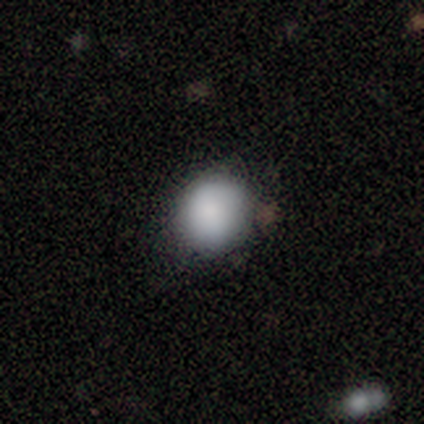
Smooth or featured?
  - smooth: 100% *
  - featured or disk: 0%
  - star or artifact: 0%
How rounded?
  - round: 80% *
  - in between: 20%
  - cigar-shaped: 0%
Merging?
  - none: 80% *
  - minor disturbance: 20%
  - major disturbance: 0%
  - merger: 0%